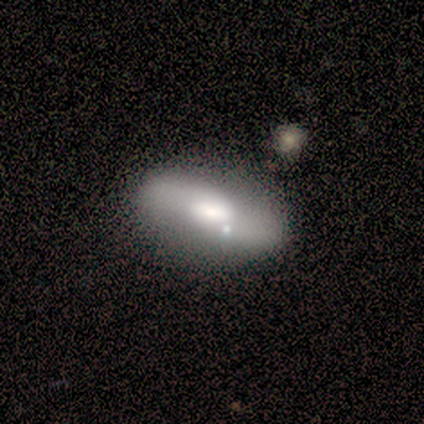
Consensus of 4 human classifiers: A smooth galaxy with no disk features (75%) that is in between round and cigar-shaped (67%). Merging: none (67%).